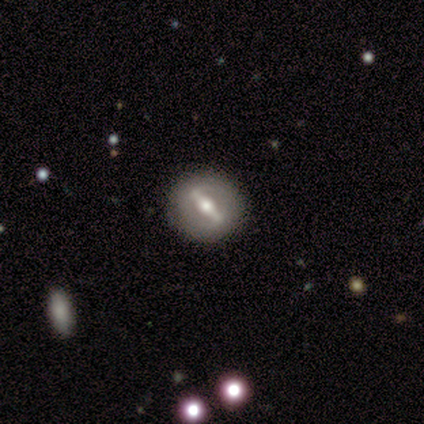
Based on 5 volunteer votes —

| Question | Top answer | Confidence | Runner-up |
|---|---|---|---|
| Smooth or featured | featured or disk | 80% | smooth (20%) |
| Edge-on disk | no | 100% | — |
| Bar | strong | 100% | — |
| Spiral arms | no | 100% | — |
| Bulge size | moderate | 100% | — |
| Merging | none | 100% | — |